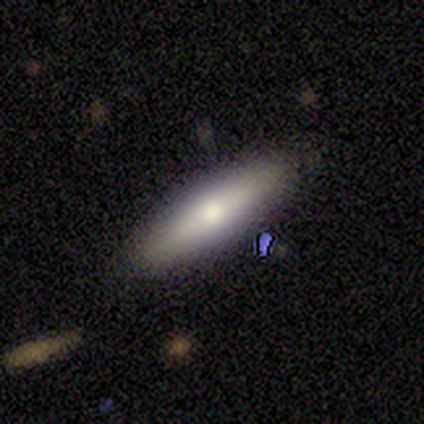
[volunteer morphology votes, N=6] This appears to be a smooth galaxy with no disk features (83%) that is in between round and cigar-shaped (80%). Merging: none (83%).